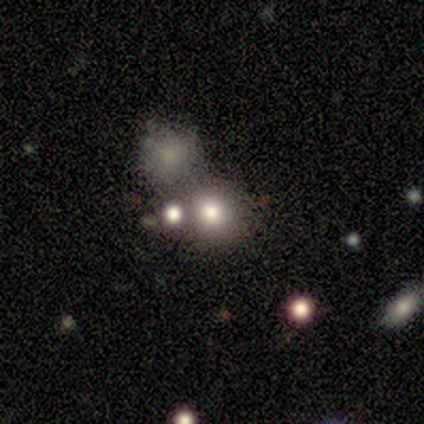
Smooth or featured? smooth (40%, tied with star or artifact)
How rounded? round (50%, tied with in between)
Merging? none (67%)